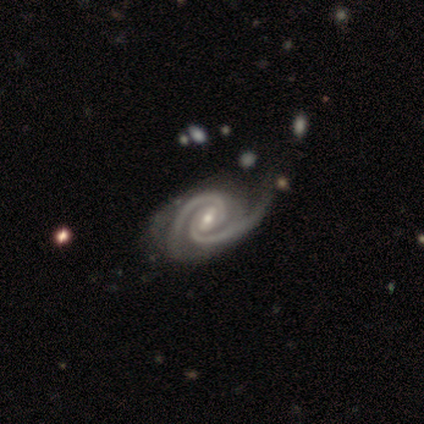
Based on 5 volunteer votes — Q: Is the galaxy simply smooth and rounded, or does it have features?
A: featured or disk — 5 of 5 (100%).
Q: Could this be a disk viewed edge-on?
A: no — 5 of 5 (100%).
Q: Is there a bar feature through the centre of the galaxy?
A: weak — 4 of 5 (80%).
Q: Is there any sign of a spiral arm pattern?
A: yes — 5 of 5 (100%).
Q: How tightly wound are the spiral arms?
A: tight — 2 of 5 (40%, tied with medium).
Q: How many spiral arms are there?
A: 2 — 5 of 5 (100%).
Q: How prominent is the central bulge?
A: moderate — 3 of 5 (60%).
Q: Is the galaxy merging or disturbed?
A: none — 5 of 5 (100%).